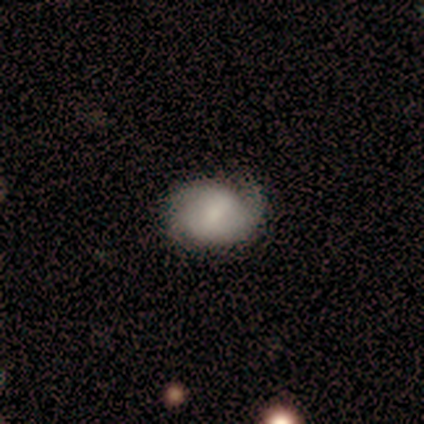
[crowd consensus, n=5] A featured or disk galaxy (60%) with a weak bar (67%), 2 (67%) medium (67%) spiral arms (100%) and a dominant central bulge (33%, tied with small and none).

Vote fractions:
- Smooth or featured? featured or disk: 60% / smooth: 40% / star or artifact: 0%
- Edge-on disk? no: 100% / yes: 0%
- Bar? weak: 67% / no: 33% / strong: 0%
- Spiral arms? yes: 100% / no: 0%
- Spiral winding? medium: 67% / tight: 33% / loose: 0%
- Spiral arm count? 2: 67% / can't tell: 33% / 1: 0% / 3: 0% / 4: 0% / more than 4: 0%
- Bulge size? dominant: 33% (tied) / small: 33% (tied) / none: 33% (tied) / large: 0% / moderate: 0%
- Merging? none: 60% / minor disturbance: 20% / major disturbance: 20% / merger: 0%